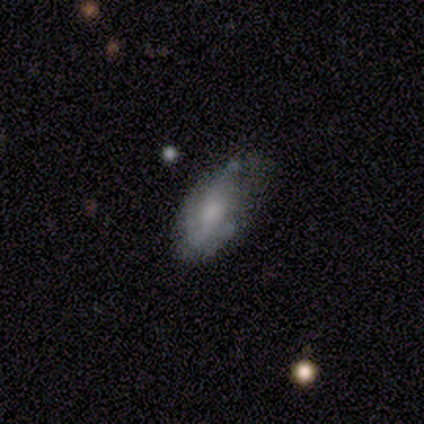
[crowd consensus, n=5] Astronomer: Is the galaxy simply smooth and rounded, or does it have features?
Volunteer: smooth — 40%, tied with featured or disk at 40%.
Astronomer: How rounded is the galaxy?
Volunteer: in between — 100%.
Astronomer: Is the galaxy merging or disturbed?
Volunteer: minor disturbance — 50%.